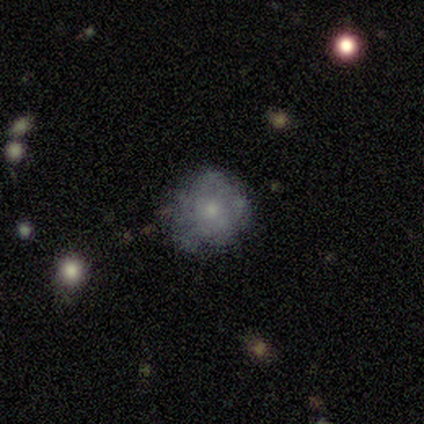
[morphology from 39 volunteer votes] This appears to be a smooth galaxy with no disk features (46%) that is round (89%). Merging: none (63%).